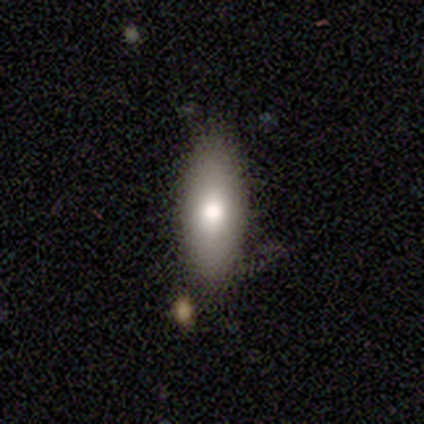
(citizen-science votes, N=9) smooth 89%, star or artifact 11%, featured or disk 0%. Down the decision tree: how rounded — in between (100%); merging — none (62%).